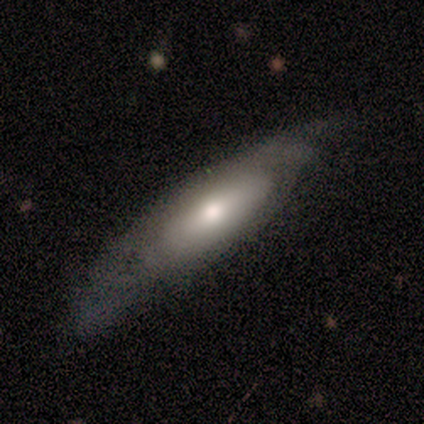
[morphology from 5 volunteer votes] Q: Smooth or featured?
A: smooth (60%); runner-up: featured or disk (40%)
Q: How rounded?
A: in between (67%); runner-up: cigar-shaped (33%)
Q: Merging?
A: none (60%); runner-up: minor disturbance (40%)